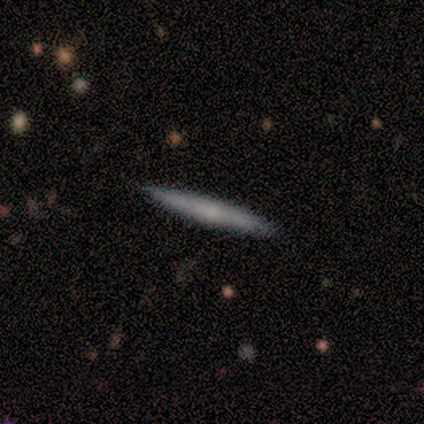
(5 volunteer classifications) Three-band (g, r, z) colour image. It shows a featured or disk galaxy (80%) viewed edge-on (100%) with no central bulge (100%). Merging: none (100%).